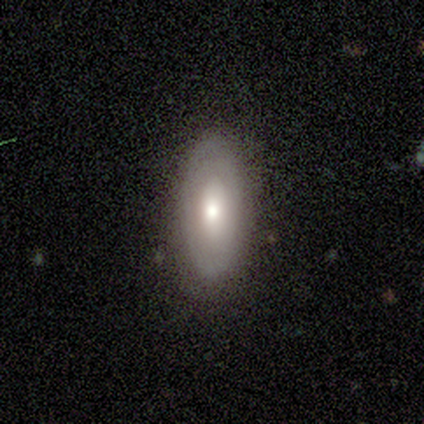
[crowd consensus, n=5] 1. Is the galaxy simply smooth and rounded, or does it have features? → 60% smooth, 40% featured or disk, 0% star or artifact.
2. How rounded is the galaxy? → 100% in between, 0% round, 0% cigar-shaped.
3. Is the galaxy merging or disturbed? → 100% none, 0% minor disturbance, 0% major disturbance, 0% merger.